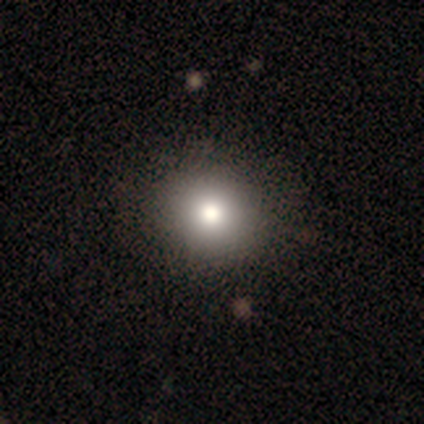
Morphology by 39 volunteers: smooth 79%, featured or disk 13%, star or artifact 8%. Down the decision tree: how rounded — round (87%); merging — none (75%).